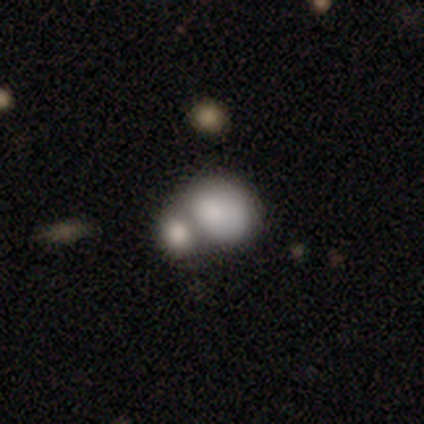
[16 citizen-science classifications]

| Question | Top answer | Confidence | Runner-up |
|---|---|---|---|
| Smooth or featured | smooth | 75% | featured or disk (19%) |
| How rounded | round | 83% | in between (17%) |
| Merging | merger | 60% | none (27%) |